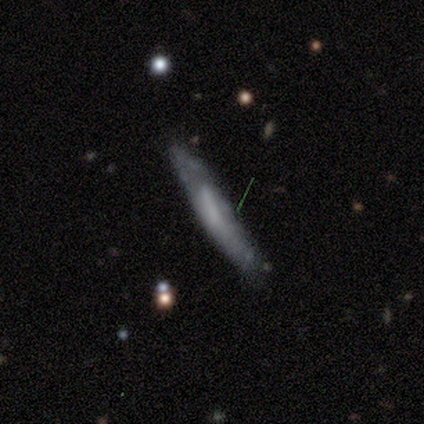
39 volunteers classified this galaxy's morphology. smooth 46%, featured or disk 44%, star or artifact 10%. Down the decision tree: how rounded — cigar-shaped (94%); merging — none (63%).